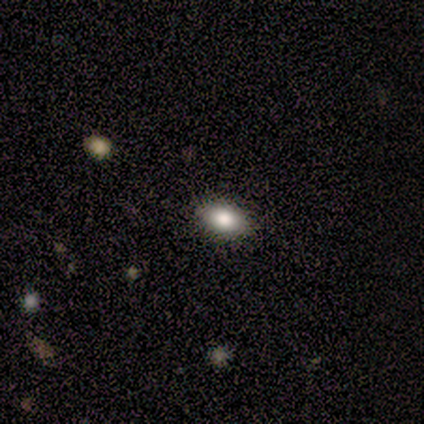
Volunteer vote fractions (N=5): Morphology: type=smooth (80%); roundness=in between (100%); merging=none (100%).